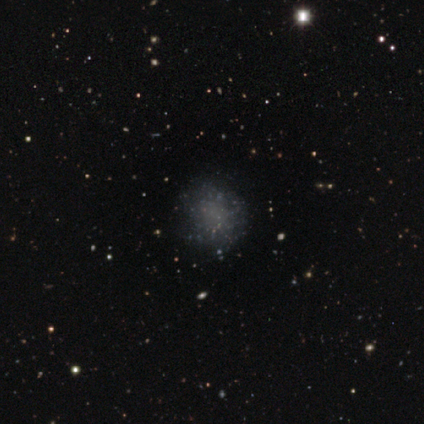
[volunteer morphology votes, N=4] Smooth or featured? smooth (75%)
How rounded? round (100%)
Merging? none (100%)